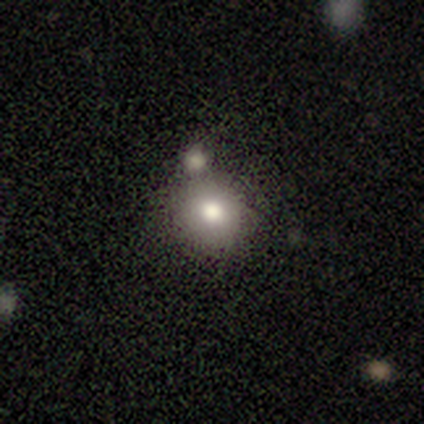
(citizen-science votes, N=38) Volunteers were most divided on "merging": none: 63%, merger: 20%, minor disturbance: 10%, major disturbance: 7%. More confident: how rounded — round (88%); smooth or featured — smooth (68%).